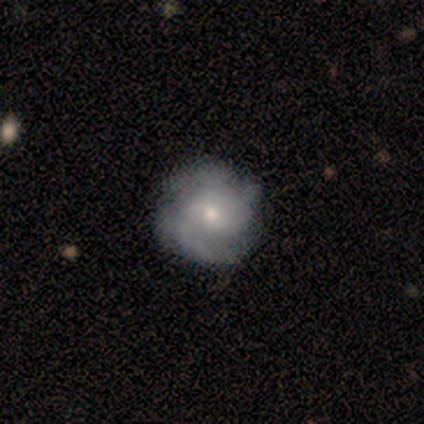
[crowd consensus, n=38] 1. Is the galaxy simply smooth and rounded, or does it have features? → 74% featured or disk, 18% smooth, 8% star or artifact.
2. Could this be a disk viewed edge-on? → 100% no, 0% yes.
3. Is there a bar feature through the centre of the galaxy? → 50% weak, 46% no, 4% strong.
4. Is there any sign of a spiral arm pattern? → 96% yes, 4% no.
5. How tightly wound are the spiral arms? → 56% medium, 22% tight, 22% loose.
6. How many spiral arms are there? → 37% 2, 30% can't tell, 22% 3, 11% 4, 0% 1, 0% more than 4.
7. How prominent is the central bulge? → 54% small, 46% moderate, 0% dominant, 0% large, 0% none.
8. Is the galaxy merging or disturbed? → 51% none, 11% minor disturbance, 3% major disturbance, 0% merger.